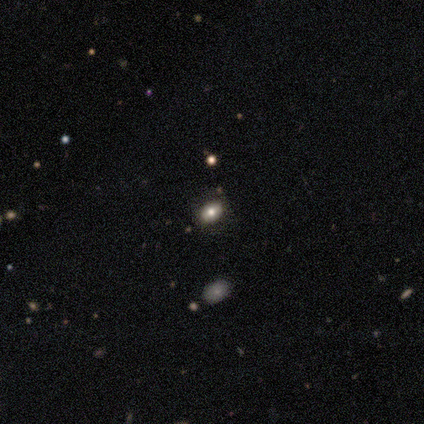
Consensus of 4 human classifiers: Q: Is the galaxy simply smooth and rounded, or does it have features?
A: smooth — 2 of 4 (50%).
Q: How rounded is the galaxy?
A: round — 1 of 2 (50%, tied with in between).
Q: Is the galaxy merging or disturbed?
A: none — 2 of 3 (67%).